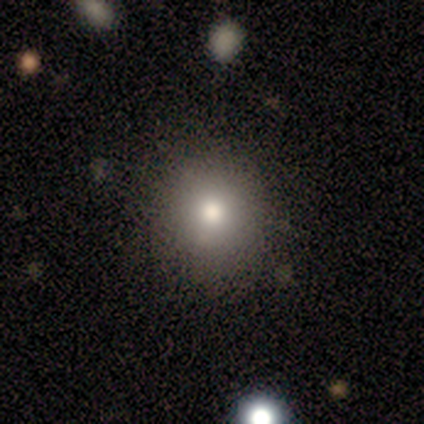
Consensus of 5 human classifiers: Morphology: type=smooth (80%); roundness=round (100%); merging=none (80%).